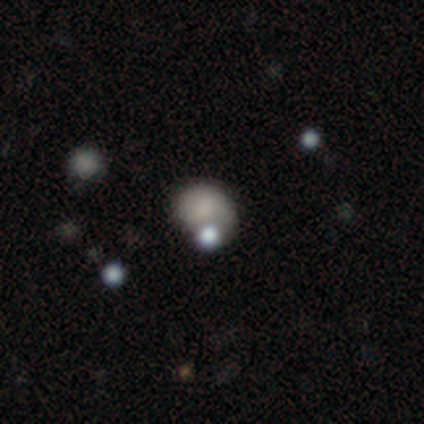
Morphology: type=smooth (60%); roundness=round (67%); merging=none (50%, tied with major disturbance).